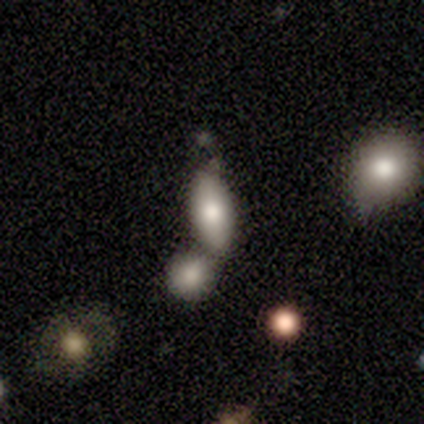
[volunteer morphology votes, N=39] smooth_or_featured: smooth (p=0.77) [alt: featured or disk p=0.15]
how_rounded: in between (p=0.93) [alt: cigar-shaped p=0.07]
merging: merger (p=0.42) [alt: none p=0.36]